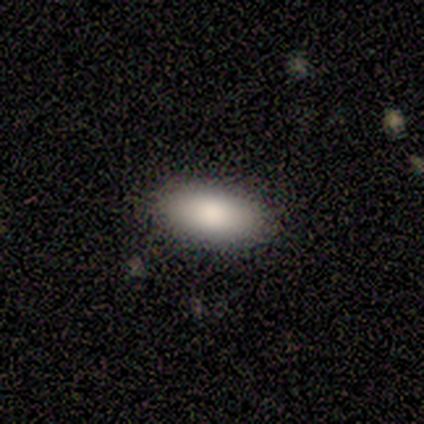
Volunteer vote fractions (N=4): Morphology: type=smooth (100%); roundness=in between (75%); merging=none (100%).